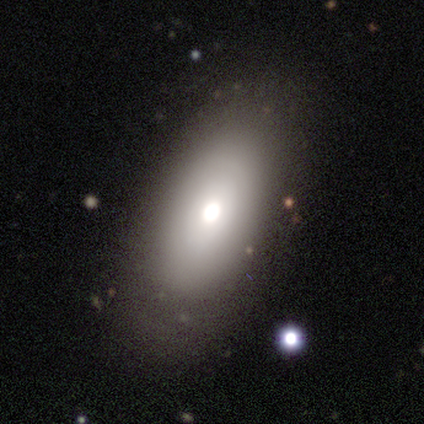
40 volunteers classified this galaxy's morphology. Volunteers were most divided on "smooth or featured": smooth: 72%, featured or disk: 20%, star or artifact: 8%. More confident: how rounded — in between (97%); merging — none (76%).